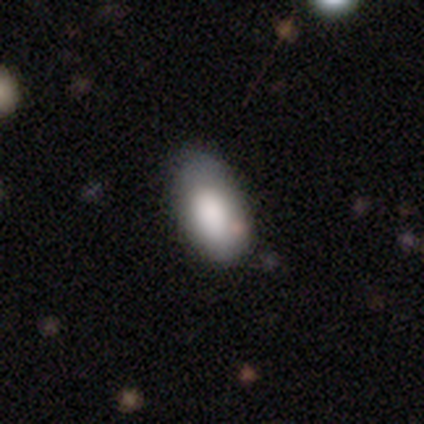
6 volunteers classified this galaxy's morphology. Smooth or featured?
  - smooth: 100% *
  - featured or disk: 0%
  - star or artifact: 0%
How rounded?
  - in between: 100% *
  - round: 0%
  - cigar-shaped: 0%
Merging?
  - none: 67% *
  - minor disturbance: 17%
  - major disturbance: 17%
  - merger: 0%